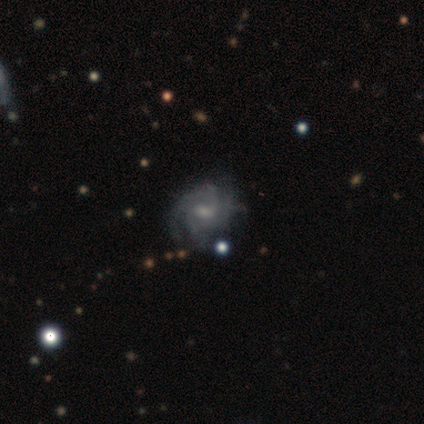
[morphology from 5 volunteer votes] Volunteers were most divided on "spiral winding" (2-way tie): tight: 50%, medium: 50%, loose: 0%. More confident: edge-on disk — no (100%); spiral arms — yes (100%); merging — none (100%); smooth or featured — featured or disk (80%); bar — weak (75%); bulge size — moderate (75%); spiral arm count — 2 (50%).